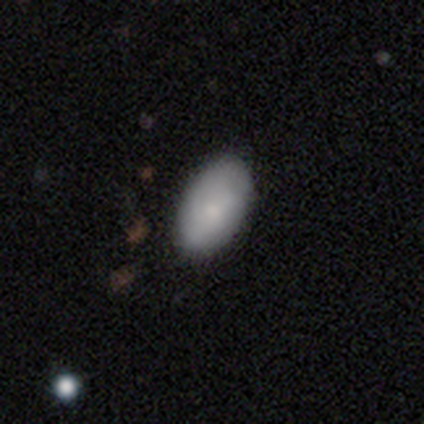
Smooth or featured? smooth (80%)
How rounded? in between (100%)
Merging? none (80%)